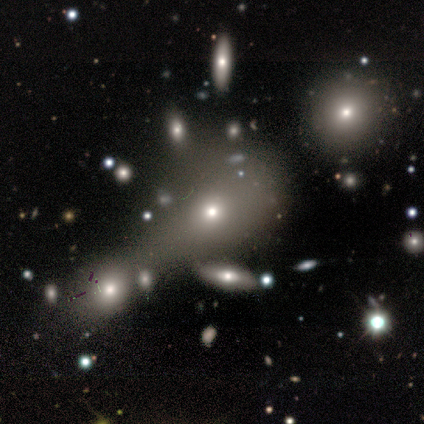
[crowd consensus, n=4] smooth-or-featured: featured or disk: 50% | smooth: 25% | star or artifact: 25%
  disk-edge-on: no: 100% | yes: 0%
    bar: no: 100% | strong: 0% | weak: 0%
    has-spiral-arms: no: 100% | yes: 0%
    bulge-size: moderate: 50% (tied) | small: 50% (tied) | dominant: 0% | large: 0% | none: 0%
  merging: minor disturbance: 67% | merger: 33% | none: 0% | major disturbance: 0%